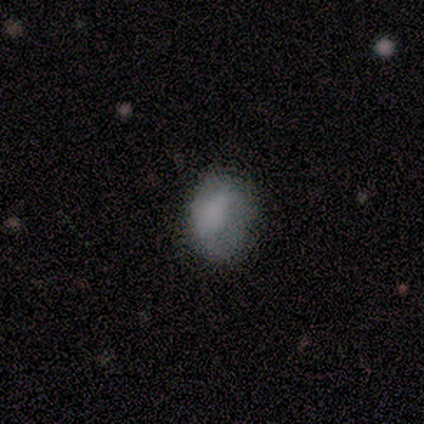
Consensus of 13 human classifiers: smooth-or-featured: smooth: 92% | featured or disk: 8% | star or artifact: 0%
  how-rounded: in between: 83% | round: 17% | cigar-shaped: 0%
  merging: minor disturbance: 54% | none: 46% | major disturbance: 0% | merger: 0%